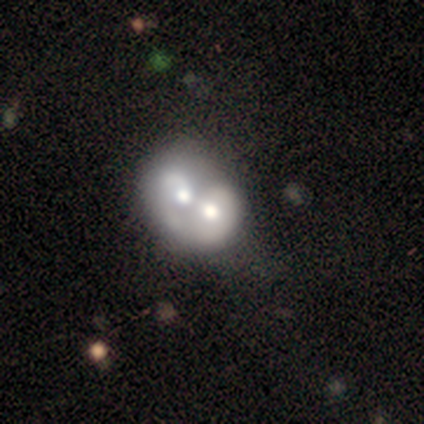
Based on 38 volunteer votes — Smooth or featured? 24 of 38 (63%) said featured or disk. Edge-on disk? 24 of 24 (100%) said no. Bar? 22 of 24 (92%) said no. Spiral arms? 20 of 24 (83%) said no. Bulge size? 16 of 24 (67%) said moderate. Merging? 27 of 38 (71%) said merger.